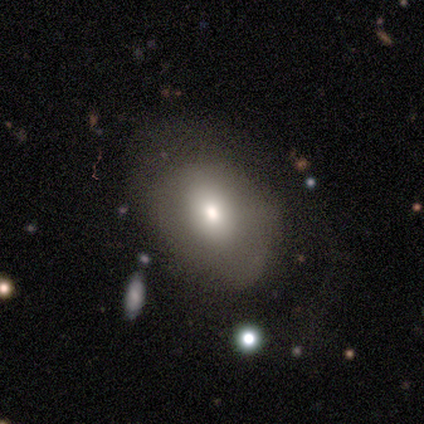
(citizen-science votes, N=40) smooth 68%, featured or disk 28%, star or artifact 5%. Down the decision tree: how rounded — in between (89%); merging — none (58%).